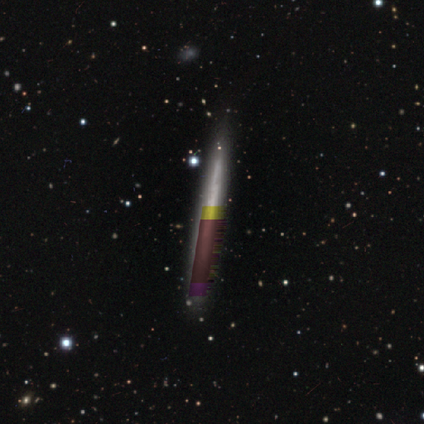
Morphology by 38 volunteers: Volunteers were most divided on "smooth or featured": star or artifact: 45%, featured or disk: 39%, smooth: 16%.